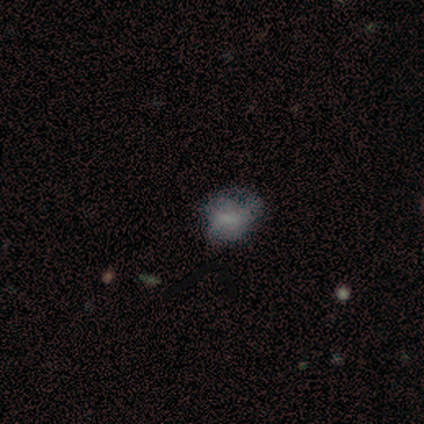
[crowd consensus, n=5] smooth_or_featured: featured or disk (p=0.80) [alt: smooth p=0.20]
disk_edge_on: no (p=1.00)
bar: no (p=0.50) [alt: strong p=0.25]
has_spiral_arms: no (p=0.75) [alt: yes p=0.25]
bulge_size: none (p=0.75) [alt: small p=0.25]
merging: minor disturbance (p=0.40) [alt: none p=0.20]